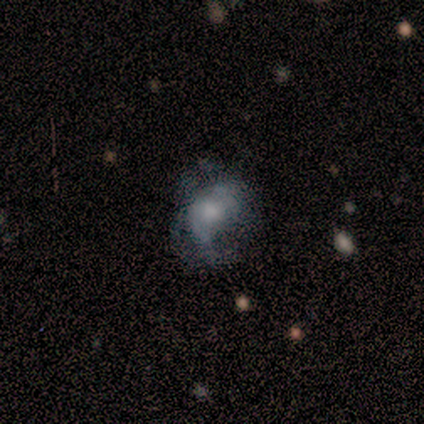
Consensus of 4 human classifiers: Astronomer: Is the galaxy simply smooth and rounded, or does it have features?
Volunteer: featured or disk — 100%.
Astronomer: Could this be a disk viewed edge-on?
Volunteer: no — 75%.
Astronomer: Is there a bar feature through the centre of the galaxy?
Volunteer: no — 100%.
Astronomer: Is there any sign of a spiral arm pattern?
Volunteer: yes — 100%.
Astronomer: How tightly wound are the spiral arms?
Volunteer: tight — 100%.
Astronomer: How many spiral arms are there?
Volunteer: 2 — 67%.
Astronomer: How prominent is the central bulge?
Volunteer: small — 67%.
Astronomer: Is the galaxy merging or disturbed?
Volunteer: none — 75%.